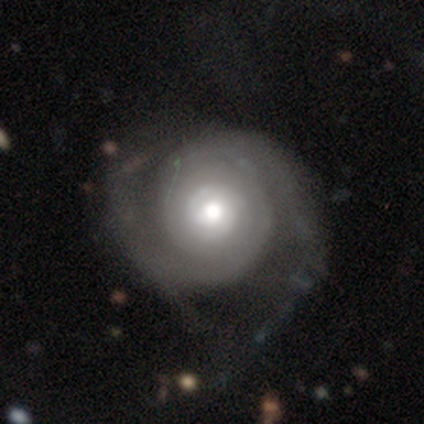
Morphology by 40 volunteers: Smooth or featured: featured or disk — 78% (smooth — 15%)
Edge-on disk: no — 100%
Bar: no — 71% (weak — 19%)
Spiral arms: yes — 100%
Spiral winding: tight — 71% (medium — 19%)
Spiral arm count: 2 — 71% (can't tell — 23%)
Bulge size: moderate — 84% (large — 13%)
Merging: none — 43% (major disturbance — 8%)